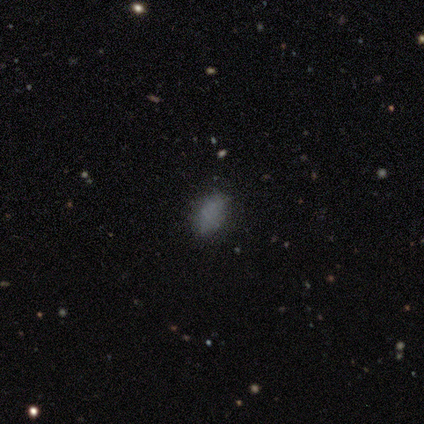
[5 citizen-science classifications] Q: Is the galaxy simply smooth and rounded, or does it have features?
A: smooth — 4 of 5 (80%).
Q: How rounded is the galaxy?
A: in between — 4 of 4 (100%).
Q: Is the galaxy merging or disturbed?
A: none — 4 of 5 (80%).